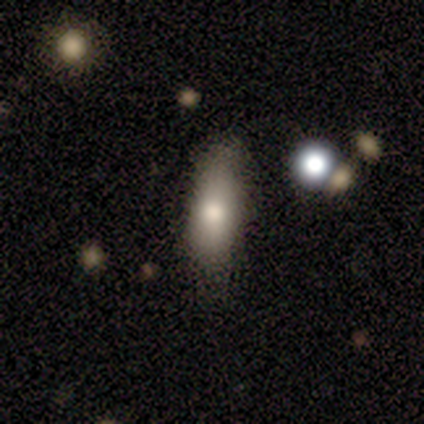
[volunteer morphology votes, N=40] smooth 60%, featured or disk 30%, star or artifact 10%. Down the decision tree: how rounded — in between (71%); merging — none (78%).